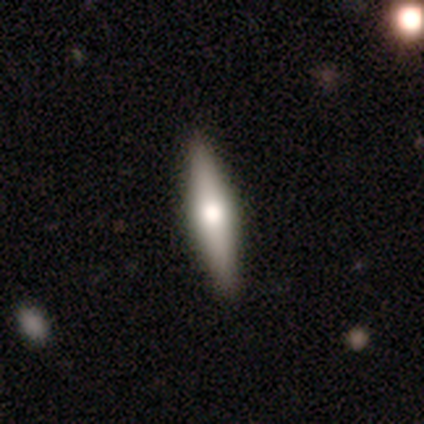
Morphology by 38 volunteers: type=featured or disk (63%); edge-on=yes (96%); edge-on bulge=rounded (96%); merging=none (80%).